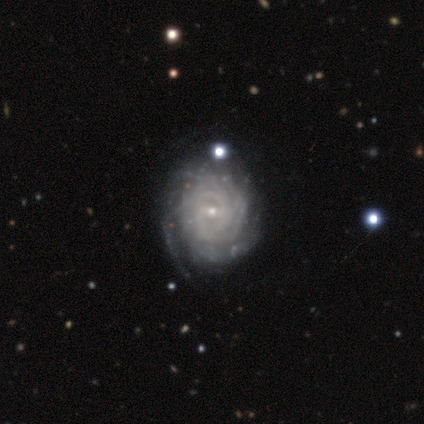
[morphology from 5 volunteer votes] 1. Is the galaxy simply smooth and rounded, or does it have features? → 100% featured or disk, 0% smooth, 0% star or artifact.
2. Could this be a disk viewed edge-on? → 100% no, 0% yes.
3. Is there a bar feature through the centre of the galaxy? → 60% weak, 40% no, 0% strong.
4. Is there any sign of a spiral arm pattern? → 100% yes, 0% no.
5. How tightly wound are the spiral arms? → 80% tight, 20% medium, 0% loose.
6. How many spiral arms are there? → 60% can't tell, 20% 3, 20% 4, 0% 1, 0% 2, 0% more than 4.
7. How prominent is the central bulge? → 100% small, 0% dominant, 0% large, 0% moderate, 0% none.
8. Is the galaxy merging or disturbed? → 80% none, 20% major disturbance, 0% minor disturbance, 0% merger.